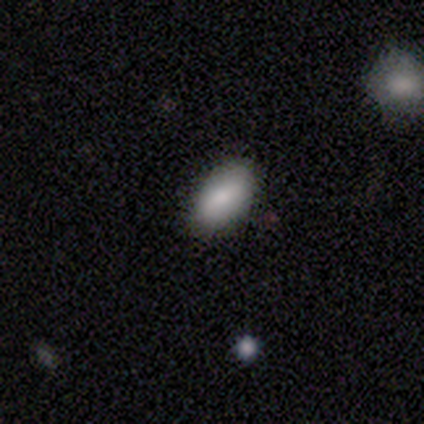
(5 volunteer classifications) A smooth galaxy with no disk features (80%) that is in between round and cigar-shaped (75%).

Vote fractions:
- Smooth or featured? smooth: 80% / featured or disk: 20% / star or artifact: 0%
- How rounded? in between: 75% / round: 25% / cigar-shaped: 0%
- Merging? none: 100% / minor disturbance: 0% / major disturbance: 0% / merger: 0%